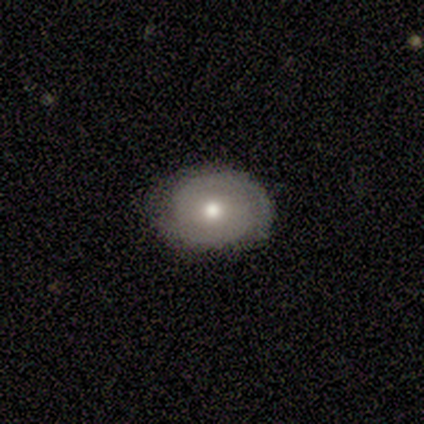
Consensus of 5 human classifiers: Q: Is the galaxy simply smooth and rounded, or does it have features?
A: featured or disk — 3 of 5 (60%).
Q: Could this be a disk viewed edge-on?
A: no — 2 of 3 (67%).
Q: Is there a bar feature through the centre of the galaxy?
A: weak — 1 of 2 (50%, tied with no).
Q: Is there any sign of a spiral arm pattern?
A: yes — 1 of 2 (50%, tied with no).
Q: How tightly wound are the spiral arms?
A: medium — 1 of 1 (100%).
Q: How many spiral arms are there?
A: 2 — 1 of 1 (100%).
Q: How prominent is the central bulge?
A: small — 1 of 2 (50%, tied with none).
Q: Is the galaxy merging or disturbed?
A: none — 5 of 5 (100%).